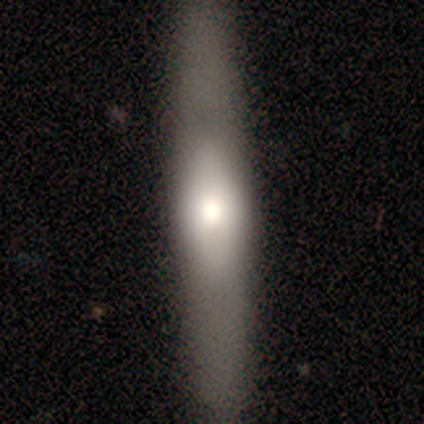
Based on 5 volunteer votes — This is clearly a featured or disk galaxy (80%). It is likely not viewed edge-on (75%). Bar: clearly no (100%). Spiral arm pattern: likely no (67%). Central bulge: likely small (67%). Merging: clearly none (100%).